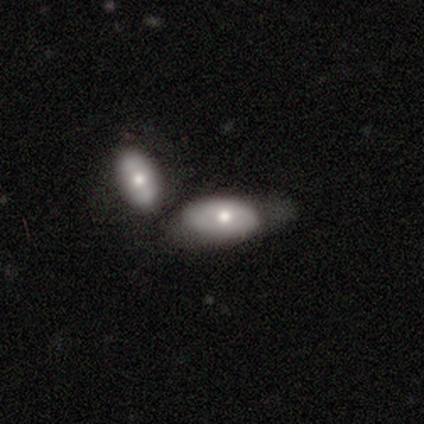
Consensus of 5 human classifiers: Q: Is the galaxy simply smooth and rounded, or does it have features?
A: smooth — 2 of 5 (40%, tied with featured or disk).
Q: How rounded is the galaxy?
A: in between — 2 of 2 (100%).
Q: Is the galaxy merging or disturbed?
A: merger — 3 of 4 (75%).